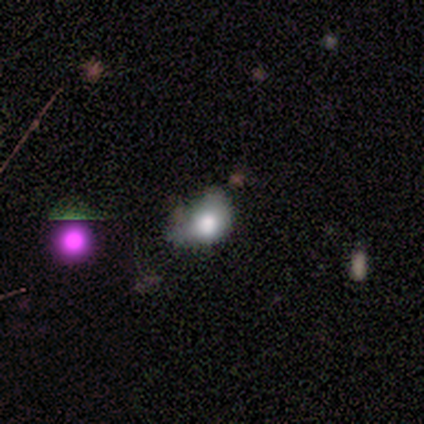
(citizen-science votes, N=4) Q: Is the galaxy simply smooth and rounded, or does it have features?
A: smooth — 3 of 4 (75%).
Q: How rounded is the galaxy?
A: round — 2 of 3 (67%).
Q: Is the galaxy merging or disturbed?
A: minor disturbance — 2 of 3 (67%).